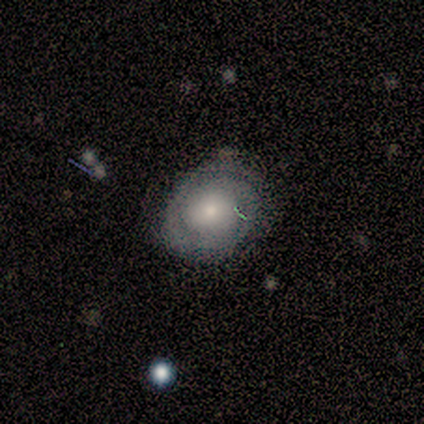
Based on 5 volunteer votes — Smooth or featured? smooth (60%)
How rounded? round (67%)
Merging? none (40%, tied with minor disturbance)